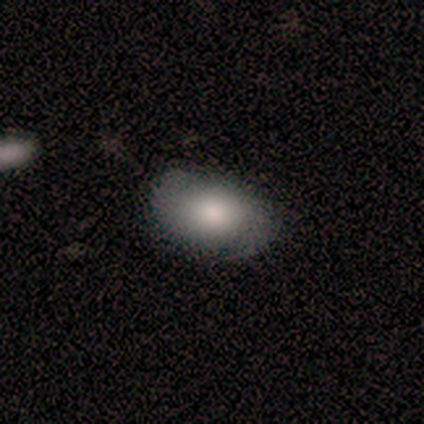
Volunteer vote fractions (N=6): Smooth or featured? featured or disk (67%)
Edge-on disk? no (100%)
Bar? no (75%)
Spiral arms? yes (75%)
Spiral winding? medium (100%)
Spiral arm count? 2 (100%)
Bulge size? large (50%, tied with moderate)
Merging? none (60%)